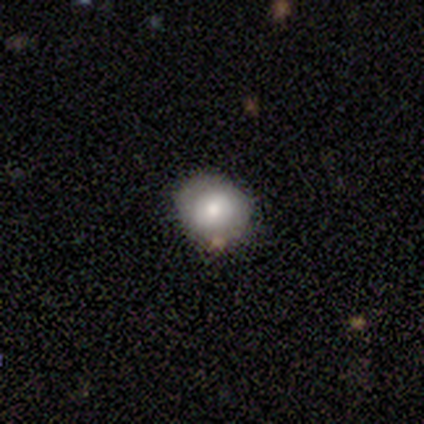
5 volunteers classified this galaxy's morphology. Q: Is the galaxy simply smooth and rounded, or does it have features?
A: smooth — 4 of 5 (80%).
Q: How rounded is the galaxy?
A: round — 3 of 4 (75%).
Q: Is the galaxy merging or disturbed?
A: none — 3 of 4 (75%).